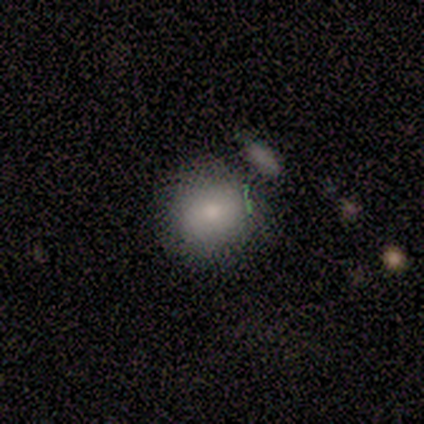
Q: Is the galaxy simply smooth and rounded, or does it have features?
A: smooth — 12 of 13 (92%).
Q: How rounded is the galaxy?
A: round — 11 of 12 (92%).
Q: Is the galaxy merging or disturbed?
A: none — 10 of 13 (77%).